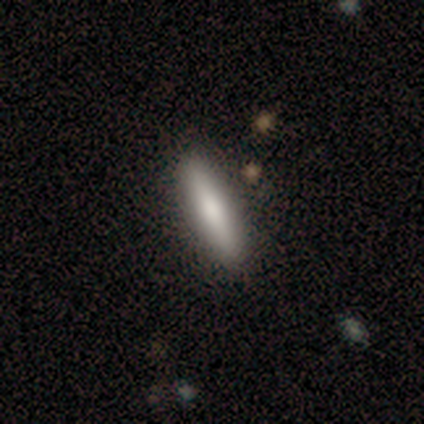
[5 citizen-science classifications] Smooth or featured? smooth (60%)
How rounded? in between (67%)
Merging? none (80%)